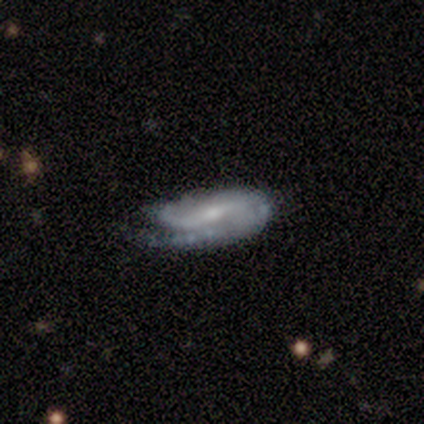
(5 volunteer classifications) A featured or disk galaxy (80%) with a strong bar (67%), 2 (67%) tight (33%, tied with medium and loose) spiral arms (100%) and a small central bulge (67%).

Vote fractions:
- Smooth or featured? featured or disk: 80% / smooth: 20% / star or artifact: 0%
- Edge-on disk? no: 75% / yes: 25%
- Bar? strong: 67% / weak: 33% / no: 0%
- Spiral arms? yes: 100% / no: 0%
- Spiral winding? tight: 33% (tied) / medium: 33% (tied) / loose: 33% (tied)
- Spiral arm count? 2: 67% / 1: 33% / 3: 0% / 4: 0% / more than 4: 0% / can't tell: 0%
- Bulge size? small: 67% / moderate: 33% / dominant: 0% / large: 0% / none: 0%
- Merging? none: 40% (tied) / minor disturbance: 40% (tied) / major disturbance: 20% / merger: 0%